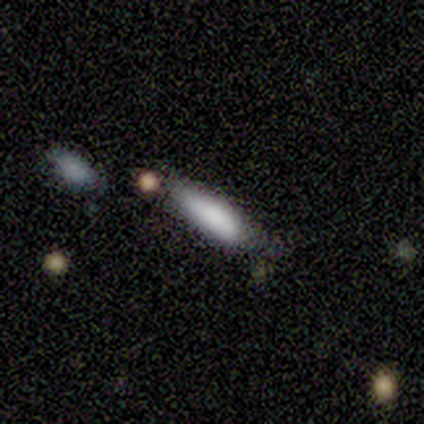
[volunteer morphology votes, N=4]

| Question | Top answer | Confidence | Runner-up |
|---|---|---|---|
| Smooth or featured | smooth | 100% | — |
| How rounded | cigar-shaped | 75% | in between (25%) |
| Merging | none | 100% | — |